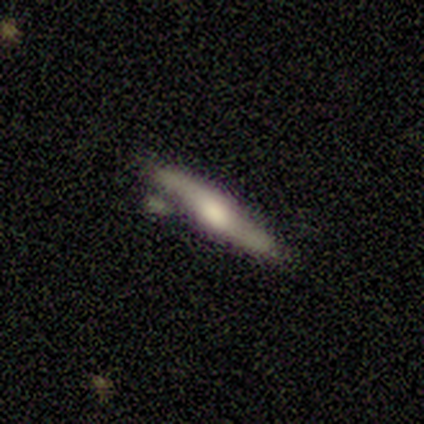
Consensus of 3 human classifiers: smooth-or-featured: smooth: 33% (tied) | featured or disk: 33% (tied) | star or artifact: 33% (tied)
  how-rounded: cigar-shaped: 100% | round: 0% | in between: 0%
  merging: none: 100% | minor disturbance: 0% | major disturbance: 0% | merger: 0%